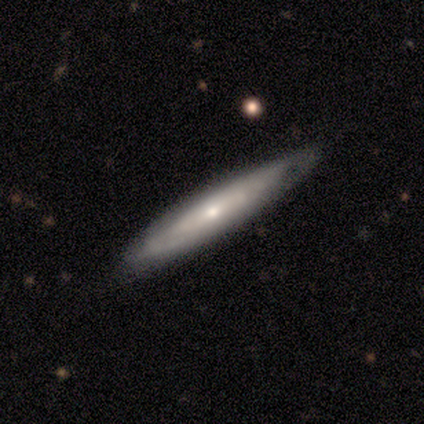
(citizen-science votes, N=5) Smooth or featured?
  - smooth: 40% * (tied)
  - featured or disk: 40% * (tied)
  - star or artifact: 20%
How rounded?
  - in between: 50% * (tied)
  - cigar-shaped: 50% * (tied)
  - round: 0%
Merging?
  - none: 75% *
  - minor disturbance: 25%
  - major disturbance: 0%
  - merger: 0%